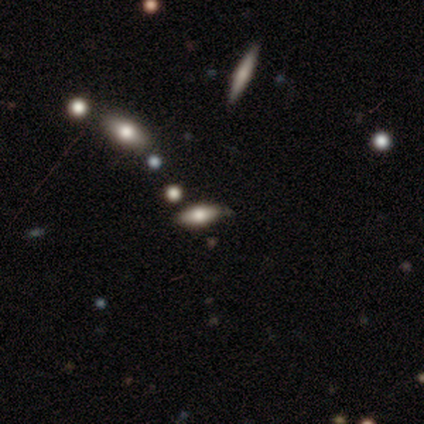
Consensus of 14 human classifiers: Overall: smooth (57%; featured or disk 21%). How rounded: in between (88%). Merging: none (82%).